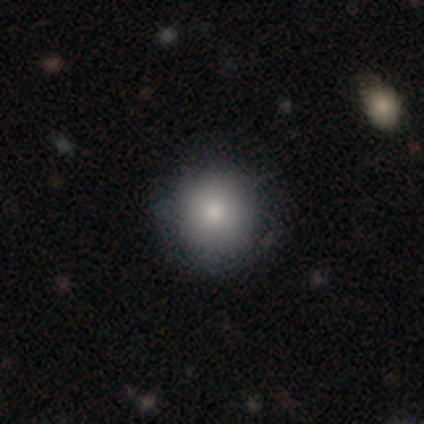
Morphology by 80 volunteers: Smooth or featured? 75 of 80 (94%) said smooth. How rounded? 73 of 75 (97%) said round. Merging? 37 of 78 (47%) said none.